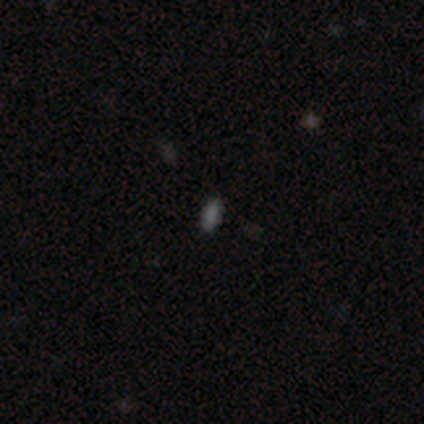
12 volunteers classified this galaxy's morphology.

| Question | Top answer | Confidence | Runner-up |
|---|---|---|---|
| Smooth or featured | smooth | 100% | — |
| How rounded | in between | 75% | cigar-shaped (25%) |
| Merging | none | 100% | — |